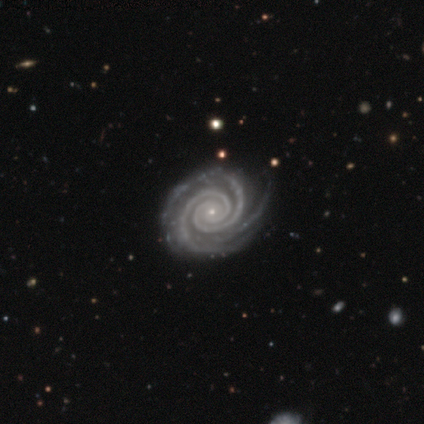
A featured or disk galaxy (100%) with no bar (92%), 2 (56%) tight (97%) spiral arms (100%) and a small central bulge (85%). Merging: none (59%).